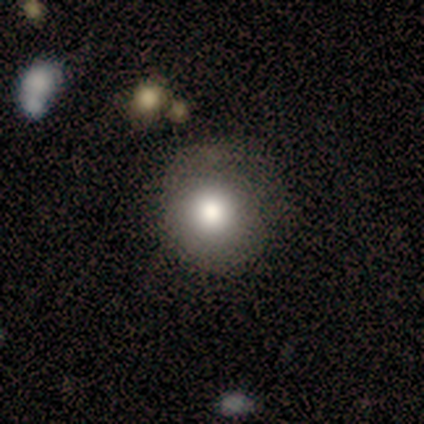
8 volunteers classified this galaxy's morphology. smooth 75%, featured or disk 12%, star or artifact 12%. Down the decision tree: how rounded — round (83%); merging — none (71%).